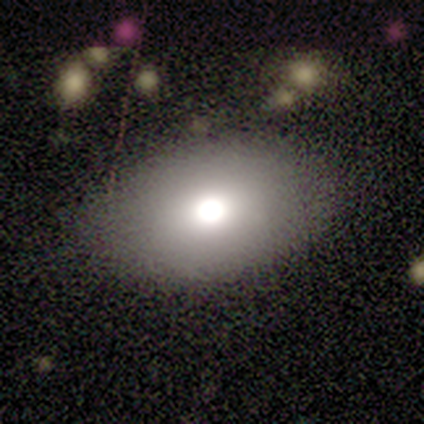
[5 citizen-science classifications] Overall: smooth (100%). How rounded: in between (100%). Merging: none (100%).